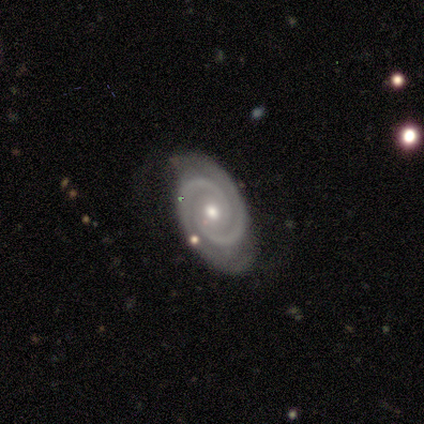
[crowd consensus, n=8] Smooth or featured? 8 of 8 (100%) said featured or disk. Edge-on disk? 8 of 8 (100%) said no. Bar? 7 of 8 (88%) said no. Spiral arms? 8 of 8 (100%) said yes. Spiral winding? 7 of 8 (88%) said tight. Spiral arm count? 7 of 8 (88%) said 2. Bulge size? 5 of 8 (62%) said moderate. Merging? 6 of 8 (75%) said none.